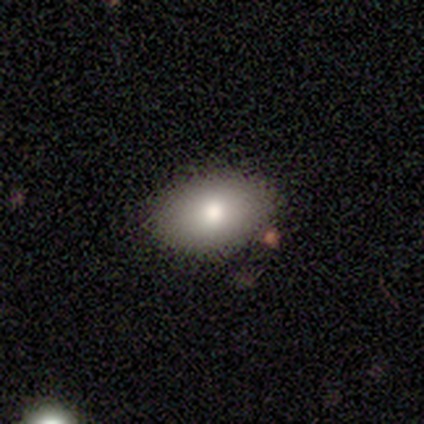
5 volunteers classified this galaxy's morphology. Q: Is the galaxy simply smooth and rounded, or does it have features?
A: smooth — 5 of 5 (100%).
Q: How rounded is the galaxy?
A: in between — 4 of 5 (80%).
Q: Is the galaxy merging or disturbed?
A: none — 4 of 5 (80%).